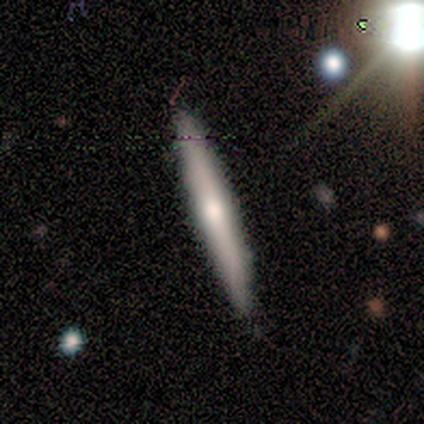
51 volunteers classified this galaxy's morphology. A featured or disk galaxy (53%) viewed edge-on (93%) with a rounded central bulge (64%).

Vote fractions:
- Smooth or featured? featured or disk: 53% / smooth: 47% / star or artifact: 0%
- Edge-on disk? yes: 93% / no: 7%
- Edge-on bulge? rounded: 64% / none: 32% / boxy: 4%
- Merging? none: 88% / minor disturbance: 12% / major disturbance: 0% / merger: 0%